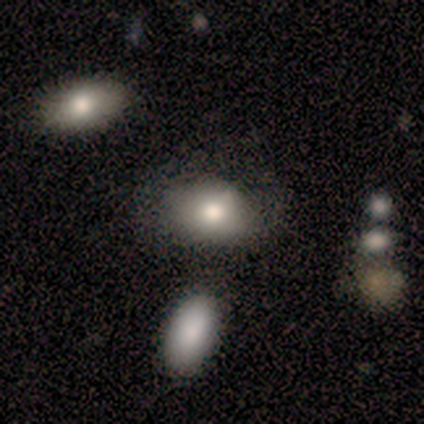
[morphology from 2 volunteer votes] Volunteers were most divided on "smooth or featured" (2-way tie): smooth: 50%, featured or disk: 50%, star or artifact: 0%; "merging" (2-way tie): none: 50%, major disturbance: 50%, minor disturbance: 0%, merger: 0%. More confident: how rounded — in between (100%).